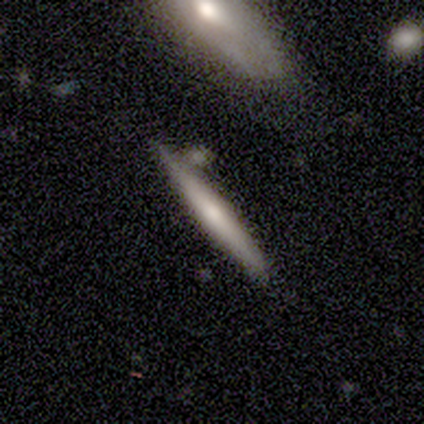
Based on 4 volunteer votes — smooth-or-featured: featured or disk: 75% | smooth: 25% | star or artifact: 0%
  disk-edge-on: yes: 100% | no: 0%
    edge-on-bulge: rounded: 100% | boxy: 0% | none: 0%
  merging: none: 100% | minor disturbance: 0% | major disturbance: 0% | merger: 0%